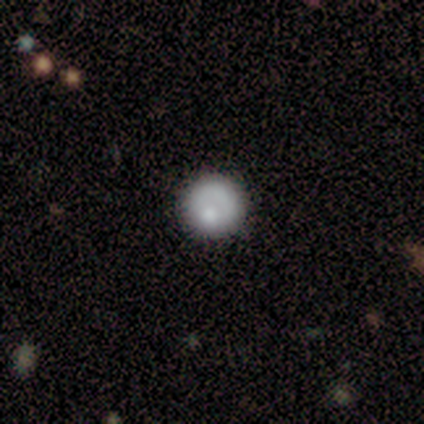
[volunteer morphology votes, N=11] Q: Smooth or featured?
A: smooth (64%); runner-up: featured or disk (36%)
Q: How rounded?
A: round (100%)
Q: Merging?
A: none (73%); runner-up: minor disturbance (27%)